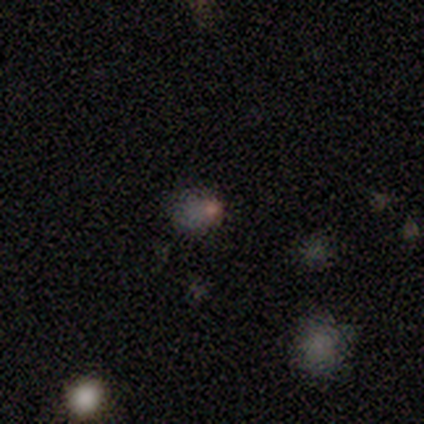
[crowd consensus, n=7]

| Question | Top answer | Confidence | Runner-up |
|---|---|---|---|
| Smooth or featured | star or artifact | 71% | smooth (14%) |